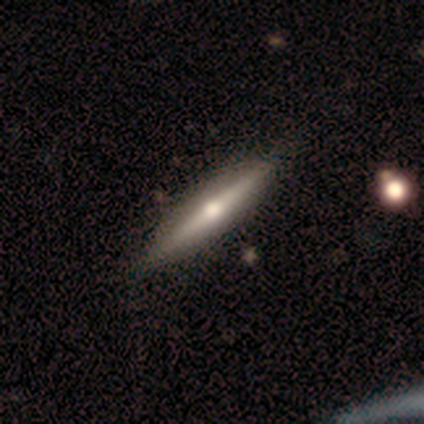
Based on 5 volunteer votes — smooth_or_featured: featured or disk (p=0.60) [alt: smooth p=0.40]
disk_edge_on: yes (p=1.00)
edge_on_bulge: boxy (p=0.67) [alt: rounded p=0.33]
merging: none (p=0.80) [alt: major disturbance p=0.20]